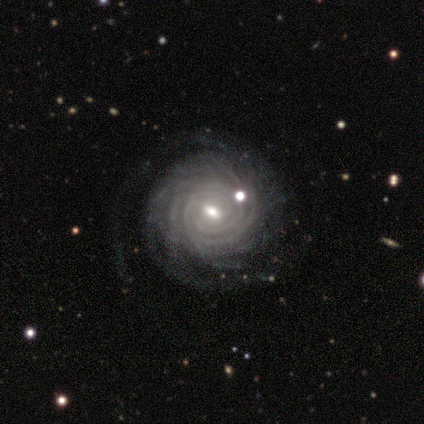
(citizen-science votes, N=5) Smooth or featured? featured or disk (100%)
Edge-on disk? no (100%)
Bar? strong (60%)
Spiral arms? yes (100%)
Spiral winding? tight (80%)
Spiral arm count? more than 4 (80%)
Bulge size? moderate (80%)
Merging? none (60%)